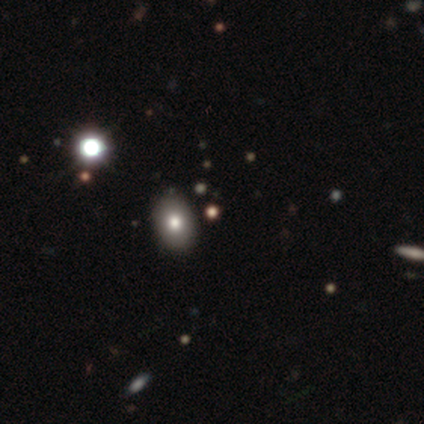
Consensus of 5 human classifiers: This appears to be a smooth galaxy with no disk features (80%) that is round (50%, tied with in between). Merging: none (100%).